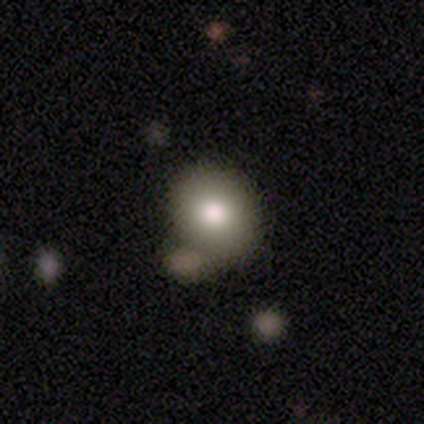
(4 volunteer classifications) Volunteers were most divided on "merging": merger: 50%, none: 25%, minor disturbance: 25%, major disturbance: 0%. More confident: how rounded — round (100%); smooth or featured — smooth (75%).